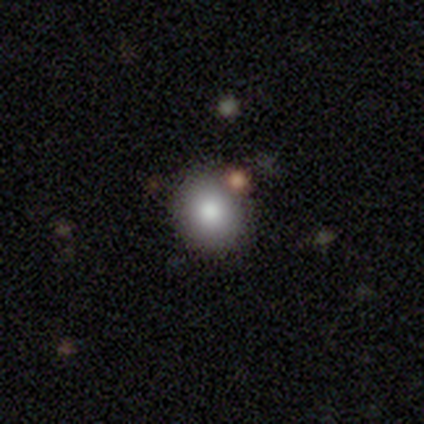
A smooth galaxy with no disk features (50%) that is round (100%). Merging: none (67%).